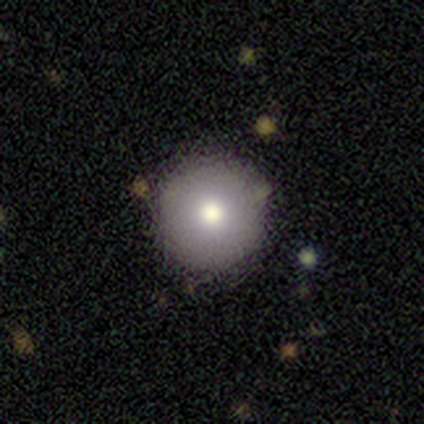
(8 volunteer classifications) This is likely a smooth galaxy (75%). How rounded: clearly round (100%). Merging: clearly none (86%).